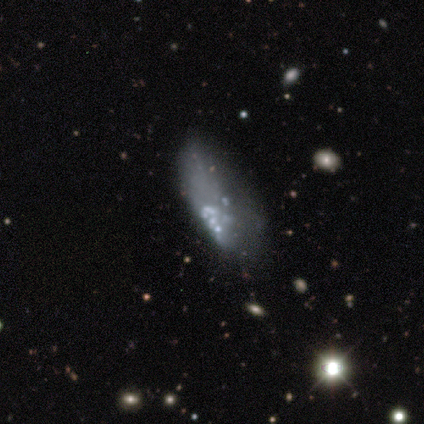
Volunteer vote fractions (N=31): smooth_or_featured: featured or disk (p=0.65) [alt: star or artifact p=0.19]
disk_edge_on: no (p=0.95) [alt: yes p=0.05]
bar: no (p=0.89) [alt: strong p=0.05]
has_spiral_arms: no (p=1.00)
bulge_size: none (p=0.79) [alt: moderate p=0.11]
merging: major disturbance (p=0.44) [alt: none p=0.24]